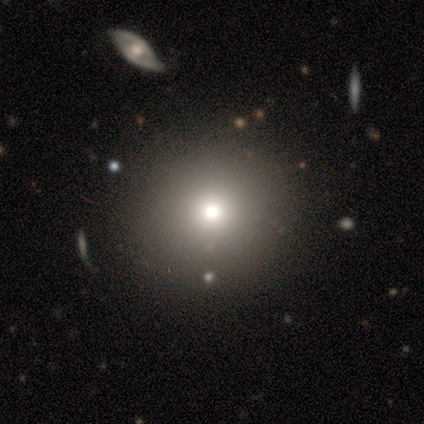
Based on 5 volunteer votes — Smooth or featured?
  - smooth: 80% *
  - featured or disk: 20%
  - star or artifact: 0%
How rounded?
  - round: 100% *
  - in between: 0%
  - cigar-shaped: 0%
Merging?
  - none: 100% *
  - minor disturbance: 0%
  - major disturbance: 0%
  - merger: 0%